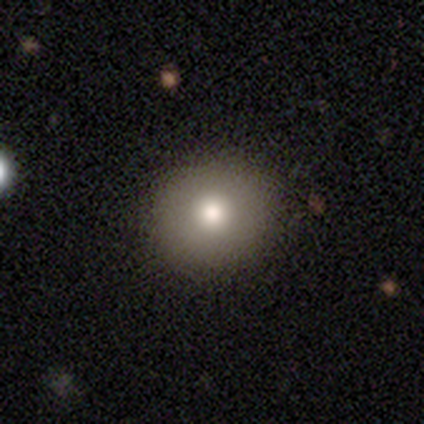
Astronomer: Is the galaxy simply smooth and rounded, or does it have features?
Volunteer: smooth — 79%.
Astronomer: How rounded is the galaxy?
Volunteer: round — 100%.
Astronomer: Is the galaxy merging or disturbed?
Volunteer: none — 68%.